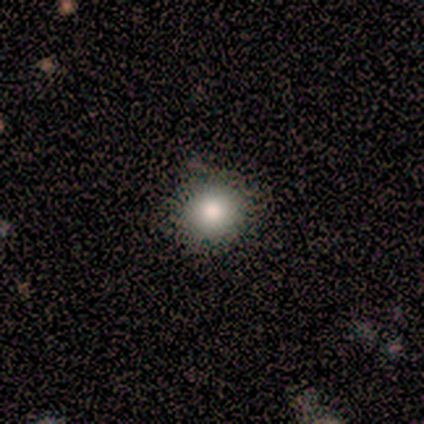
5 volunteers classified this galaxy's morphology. smooth-or-featured: smooth: 60% | featured or disk: 20% | star or artifact: 20%
  how-rounded: round: 100% | in between: 0% | cigar-shaped: 0%
  merging: none: 100% | minor disturbance: 0% | major disturbance: 0% | merger: 0%